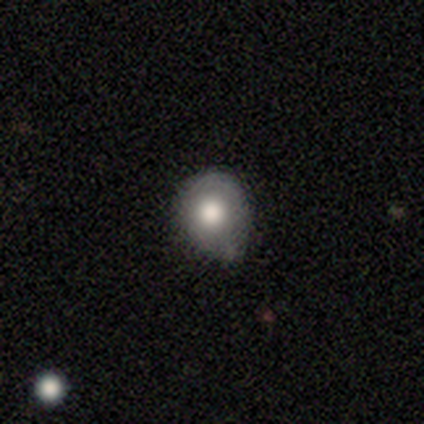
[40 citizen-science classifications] Volunteers were most divided on "merging": minor disturbance: 51%, none: 43%, major disturbance: 5%, merger: 0%. More confident: how rounded — round (77%); smooth or featured — smooth (75%).